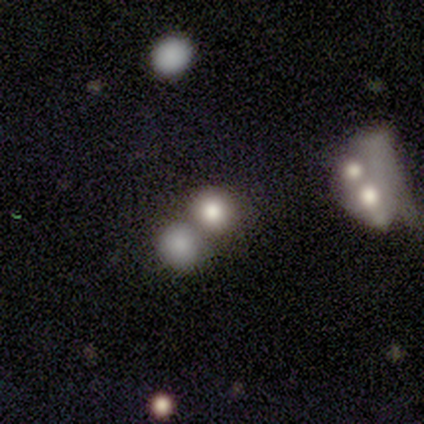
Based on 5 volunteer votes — Smooth or featured?
  - smooth: 80% *
  - featured or disk: 20%
  - star or artifact: 0%
How rounded?
  - round: 100% *
  - in between: 0%
  - cigar-shaped: 0%
Merging?
  - merger: 80% *
  - minor disturbance: 20%
  - none: 0%
  - major disturbance: 0%